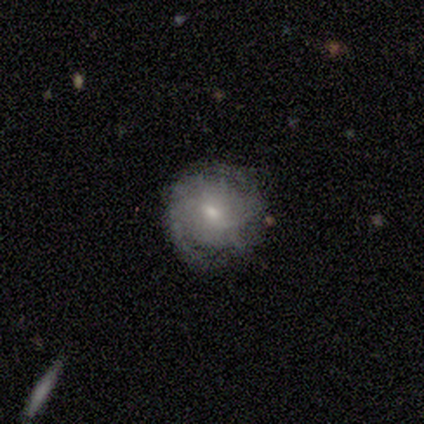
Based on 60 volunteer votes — A featured or disk galaxy (70%) with no bar (50%), tight (77%) spiral arms (88%) and a small central bulge (57%). Merging: none (55%).